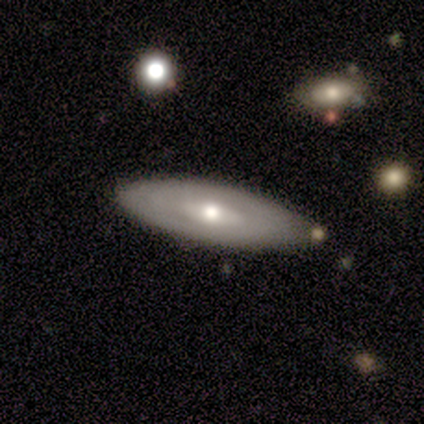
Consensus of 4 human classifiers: Volunteers were most divided on "smooth or featured" (2-way tie): smooth: 50%, featured or disk: 50%, star or artifact: 0%; "how rounded" (2-way tie): in between: 50%, cigar-shaped: 50%, round: 0%. More confident: merging — none (100%).